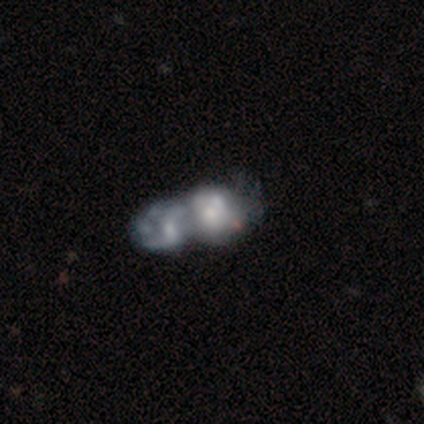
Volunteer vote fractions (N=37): Smooth or featured? featured or disk (76%)
Edge-on disk? no (96%)
Bar? no (81%)
Spiral arms? no (63%)
Bulge size? small (33%)
Merging? merger (77%)